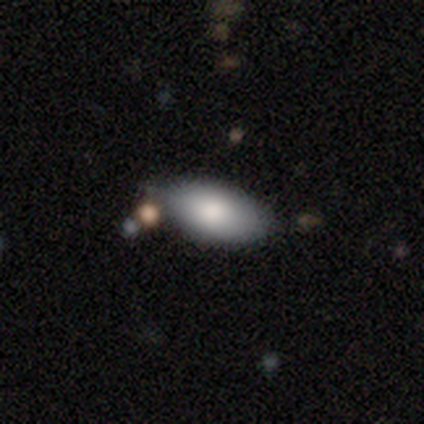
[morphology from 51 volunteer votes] A smooth galaxy with no disk features (86%) that is in between round and cigar-shaped (91%).

Vote fractions:
- Smooth or featured? smooth: 86% / featured or disk: 10% / star or artifact: 4%
- How rounded? in between: 91% / round: 7% / cigar-shaped: 2%
- Merging? none: 65% / minor disturbance: 20% / merger: 8% / major disturbance: 6%